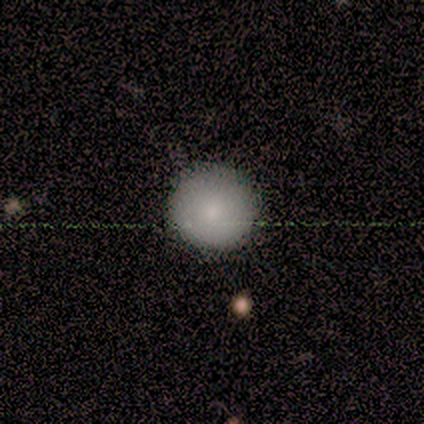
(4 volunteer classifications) Q: Smooth or featured?
A: smooth (100%)
Q: How rounded?
A: round (100%)
Q: Merging?
A: none (50%); runner-up: minor disturbance (25%)